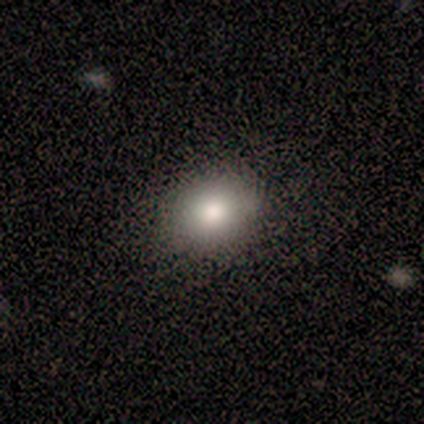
smooth 100%, featured or disk 0%, star or artifact 0%. Down the decision tree: how rounded — round (75%); merging — none (100%).